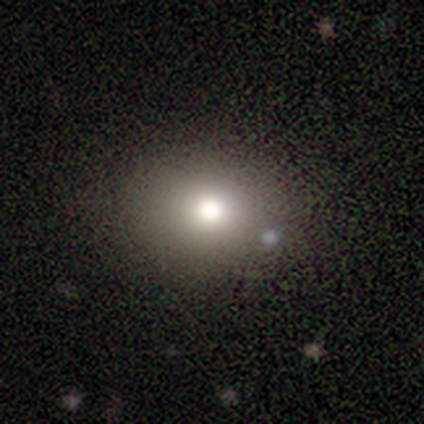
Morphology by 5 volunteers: Smooth or featured: smooth — 60% (star or artifact — 40%)
How rounded: round — 67% (in between — 33%)
Merging: none — 67% (merger — 33%)